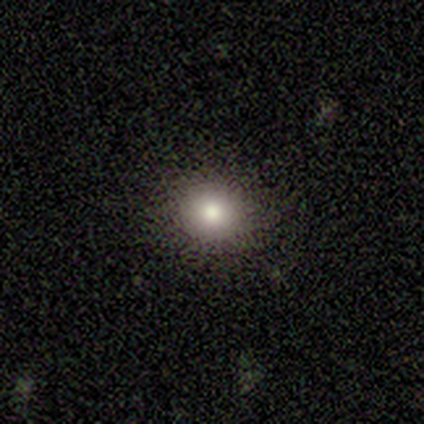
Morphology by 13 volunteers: Volunteers were most divided on "smooth or featured": smooth: 85%, star or artifact: 15%, featured or disk: 0%. More confident: merging — none (100%); how rounded — round (91%).